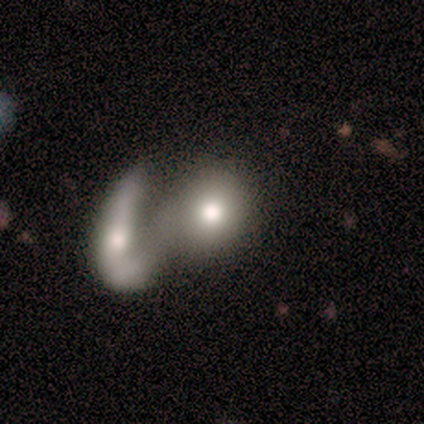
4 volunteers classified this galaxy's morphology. Q: Smooth or featured?
A: smooth (50%); runner-up: featured or disk (25%)
Q: How rounded?
A: round (50%); tied with: in between (50%)
Q: Merging?
A: merger (100%)